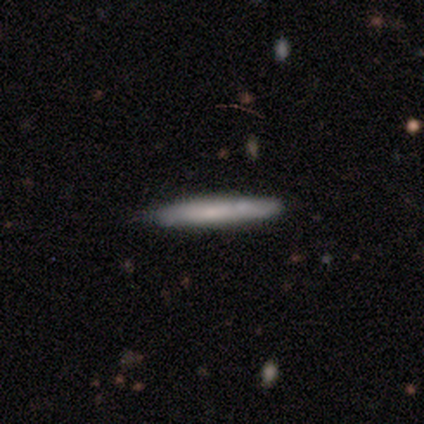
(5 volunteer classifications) Smooth or featured?
  - smooth: 60% *
  - featured or disk: 40%
  - star or artifact: 0%
How rounded?
  - cigar-shaped: 100% *
  - round: 0%
  - in between: 0%
Merging?
  - none: 80% *
  - minor disturbance: 20%
  - major disturbance: 0%
  - merger: 0%